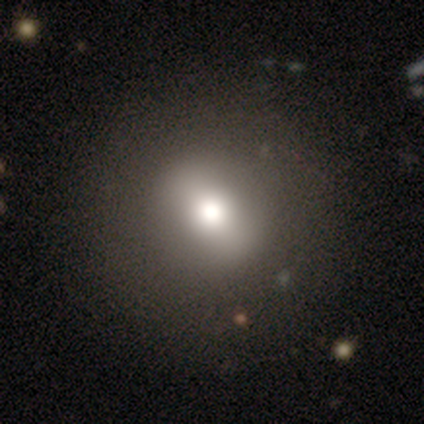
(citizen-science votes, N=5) A smooth galaxy with no disk features (60%) that is round (67%). Merging: none (100%).